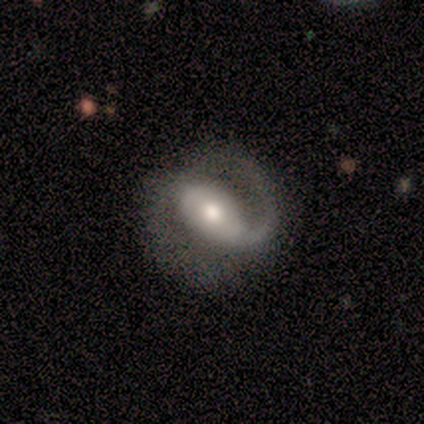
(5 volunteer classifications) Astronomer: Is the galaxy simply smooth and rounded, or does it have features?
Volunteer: featured or disk — 80%.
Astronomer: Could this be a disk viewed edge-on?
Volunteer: no — 100%.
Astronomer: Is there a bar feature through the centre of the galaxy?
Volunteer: strong — 75%.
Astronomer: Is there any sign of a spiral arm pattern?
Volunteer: yes — 100%.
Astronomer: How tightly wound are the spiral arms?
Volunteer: medium — 50%.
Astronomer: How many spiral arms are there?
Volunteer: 1 — 50%, tied with 2 at 50%.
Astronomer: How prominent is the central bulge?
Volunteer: moderate — 100%.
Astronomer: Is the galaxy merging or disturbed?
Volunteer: none — 40%, tied with major disturbance at 40%.